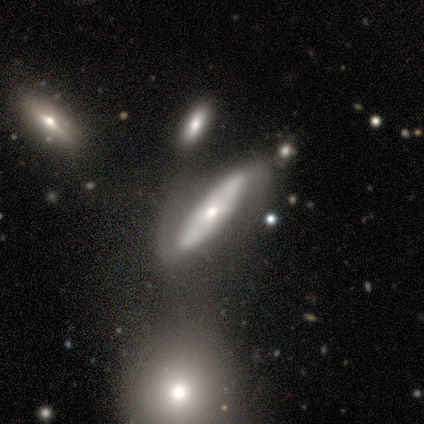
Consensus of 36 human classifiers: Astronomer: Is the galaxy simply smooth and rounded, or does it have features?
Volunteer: featured or disk — 47% (runner-up: smooth, 42%).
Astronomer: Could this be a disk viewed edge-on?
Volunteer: no — 53% (runner-up: yes, 47%).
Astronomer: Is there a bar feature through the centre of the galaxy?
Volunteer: no — 78%.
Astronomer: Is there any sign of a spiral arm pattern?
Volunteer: yes — 56% (runner-up: no, 44%).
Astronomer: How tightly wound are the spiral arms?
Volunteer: medium — 40%, tied with loose at 40%.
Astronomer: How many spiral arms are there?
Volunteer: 2 — 80%.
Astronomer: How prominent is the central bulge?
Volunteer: small — 56% (runner-up: moderate, 44%).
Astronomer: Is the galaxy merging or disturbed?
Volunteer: merger — 31% (runner-up: none, 16%).